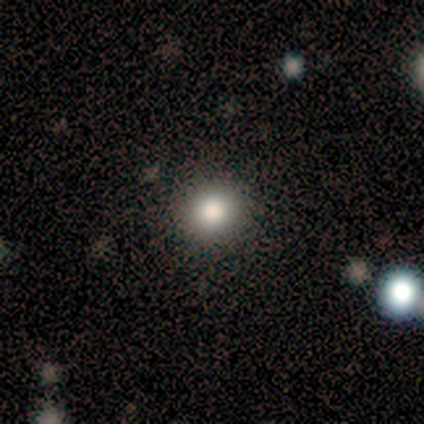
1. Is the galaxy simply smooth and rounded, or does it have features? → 70% smooth, 30% star or artifact, 0% featured or disk.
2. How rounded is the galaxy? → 86% round, 14% in between, 0% cigar-shaped.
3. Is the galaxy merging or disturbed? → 86% none, 14% minor disturbance, 0% major disturbance, 0% merger.